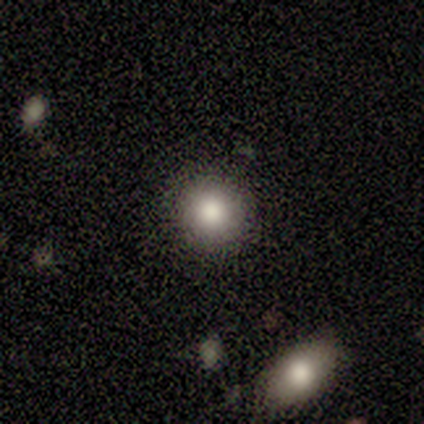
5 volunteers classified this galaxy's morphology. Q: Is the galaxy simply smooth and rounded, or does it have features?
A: smooth — 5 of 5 (100%).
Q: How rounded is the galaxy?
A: round — 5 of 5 (100%).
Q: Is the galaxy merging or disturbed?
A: none — 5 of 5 (100%).